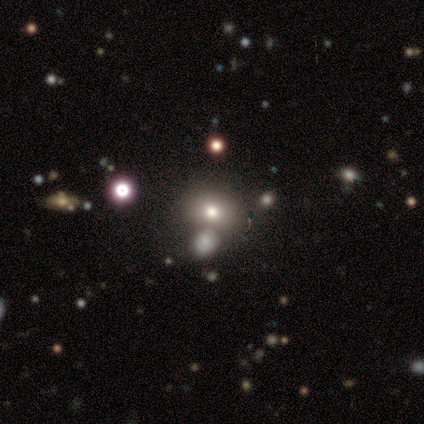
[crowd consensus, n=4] This appears to be a smooth galaxy with no disk features (75%) that is round (67%). Merging: none (100%).